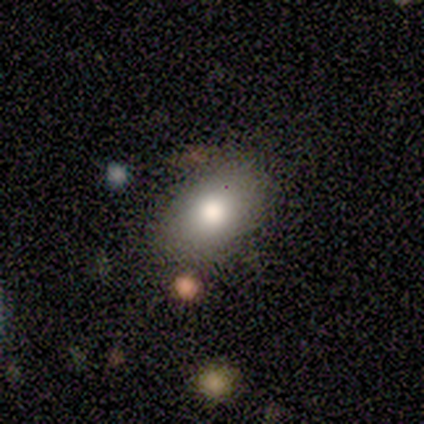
Smooth or featured? 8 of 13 (62%) said smooth. How rounded? 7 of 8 (88%) said in between. Merging? 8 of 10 (80%) said none.